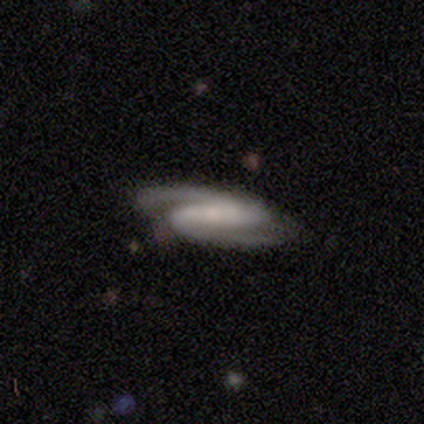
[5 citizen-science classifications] smooth-or-featured: featured or disk: 100% | smooth: 0% | star or artifact: 0%
  disk-edge-on: no: 100% | yes: 0%
    bar: strong: 60% | weak: 20% | no: 20%
    has-spiral-arms: yes: 100% | no: 0%
      spiral-winding: tight: 60% | medium: 40% | loose: 0%
      spiral-arm-count: 2: 100% | 1: 0% | 3: 0% | 4: 0% | more than 4: 0% | can't tell: 0%
    bulge-size: small: 100% | dominant: 0% | large: 0% | moderate: 0% | none: 0%
  merging: none: 100% | minor disturbance: 0% | major disturbance: 0% | merger: 0%